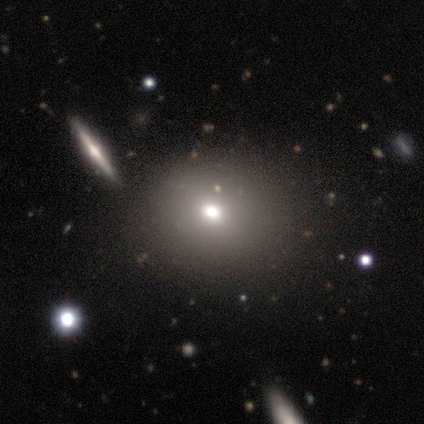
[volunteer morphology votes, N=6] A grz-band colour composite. It shows a smooth galaxy with no disk features (50%) that is round (67%). Merging: none (75%).